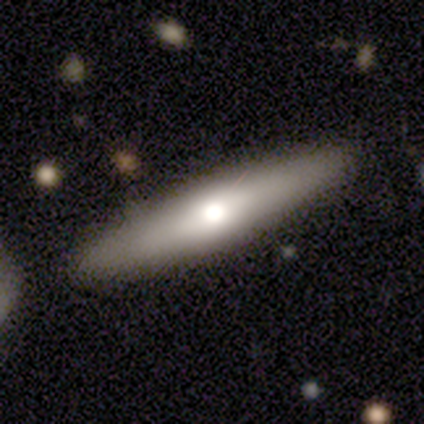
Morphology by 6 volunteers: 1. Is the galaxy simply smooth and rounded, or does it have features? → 50% smooth (tied), 50% featured or disk (tied), 0% star or artifact.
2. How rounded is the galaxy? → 67% cigar-shaped, 33% in between, 0% round.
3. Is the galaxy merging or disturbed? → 100% none, 0% minor disturbance, 0% major disturbance, 0% merger.